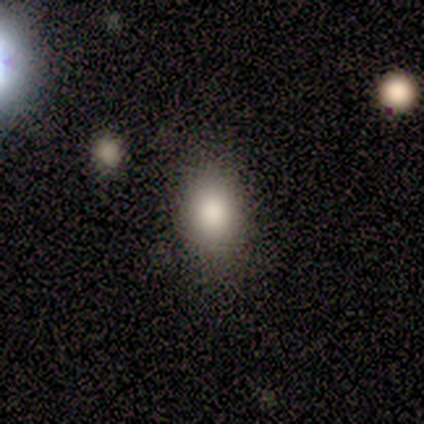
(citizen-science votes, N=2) Overall: smooth (100%). How rounded: in between (100%). Merging: none (50%, tied with minor disturbance).